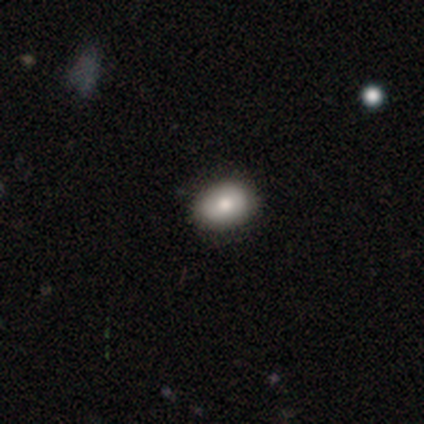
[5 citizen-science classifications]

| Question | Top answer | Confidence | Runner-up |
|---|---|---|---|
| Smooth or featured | smooth | 60% | star or artifact (40%) |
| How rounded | in between | 100% | — |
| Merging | none | 67% | minor disturbance (33%) |